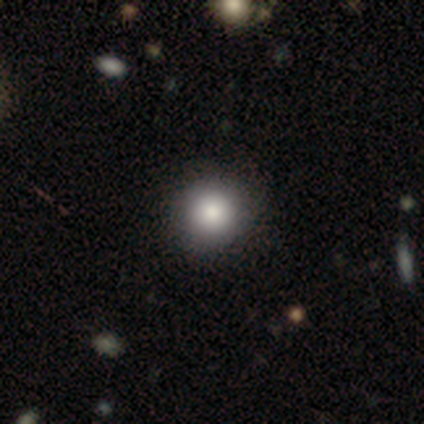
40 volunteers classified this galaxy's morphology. A smooth galaxy with no disk features (95%) that is round (89%). Merging: none (87%).